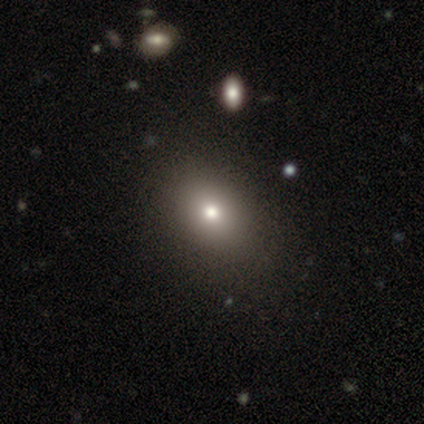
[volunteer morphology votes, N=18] Smooth or featured? smooth (67%)
How rounded? in between (75%)
Merging? none (87%)